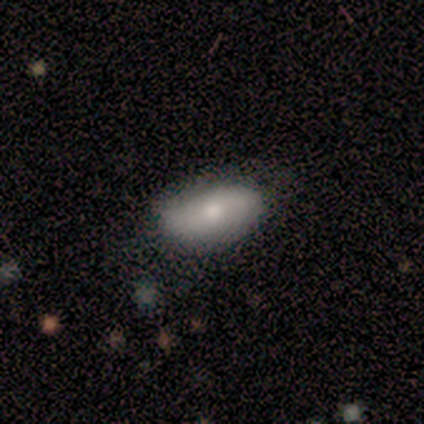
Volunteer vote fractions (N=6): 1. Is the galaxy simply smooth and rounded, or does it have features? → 67% smooth, 33% featured or disk, 0% star or artifact.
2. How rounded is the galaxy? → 75% in between, 25% cigar-shaped, 0% round.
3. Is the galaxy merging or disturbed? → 83% none, 17% minor disturbance, 0% major disturbance, 0% merger.